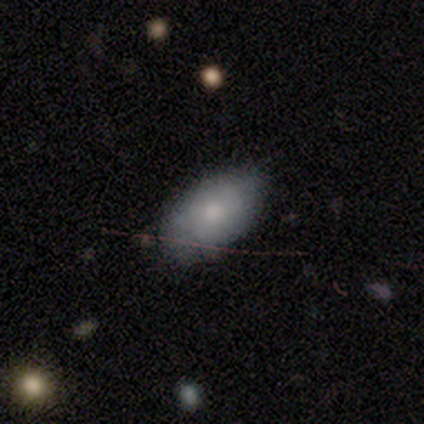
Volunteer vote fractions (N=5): A smooth galaxy with no disk features (80%) that is in between round and cigar-shaped (100%). Merging: none (80%).